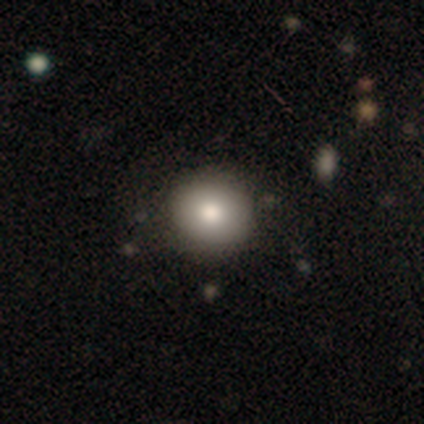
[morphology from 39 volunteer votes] smooth_or_featured: smooth (p=0.77) [alt: featured or disk p=0.13]
how_rounded: round (p=0.97) [alt: in between p=0.03]
merging: none (p=0.77) [alt: minor disturbance p=0.14]